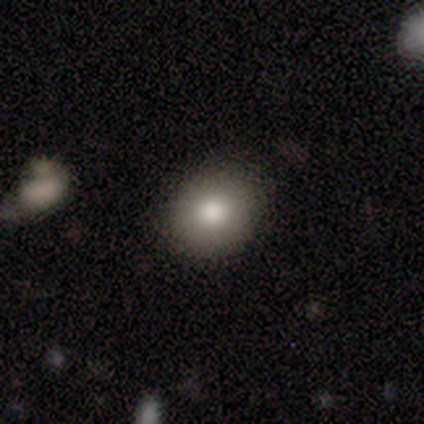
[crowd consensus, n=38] Volunteers were most divided on "how rounded": round: 68%, in between: 29%, cigar-shaped: 3%. More confident: smooth or featured — smooth (82%); merging — none (65%).